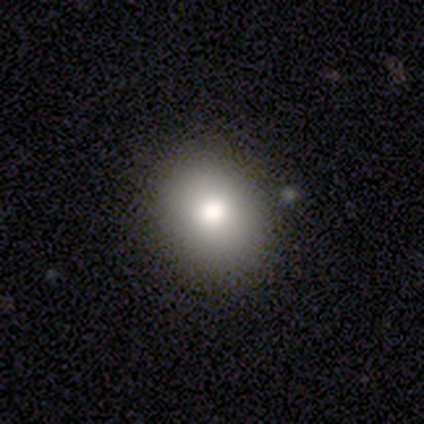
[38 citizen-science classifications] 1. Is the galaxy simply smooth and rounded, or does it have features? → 82% smooth, 11% featured or disk, 8% star or artifact.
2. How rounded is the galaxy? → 71% round, 29% in between, 0% cigar-shaped.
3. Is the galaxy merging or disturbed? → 80% none, 14% major disturbance, 3% minor disturbance, 3% merger.